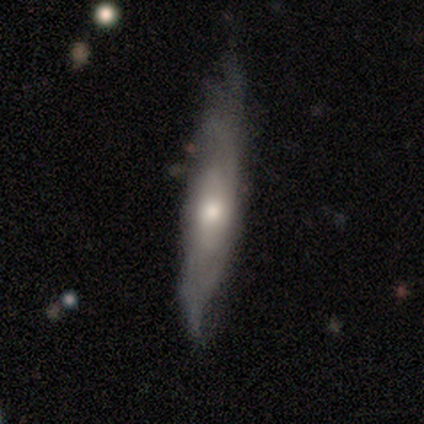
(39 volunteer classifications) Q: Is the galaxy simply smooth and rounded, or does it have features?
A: featured or disk — 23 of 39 (59%).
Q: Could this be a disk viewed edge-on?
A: yes — 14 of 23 (61%).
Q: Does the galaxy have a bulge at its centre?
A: rounded — 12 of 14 (86%).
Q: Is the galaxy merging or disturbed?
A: none — 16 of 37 (43%).